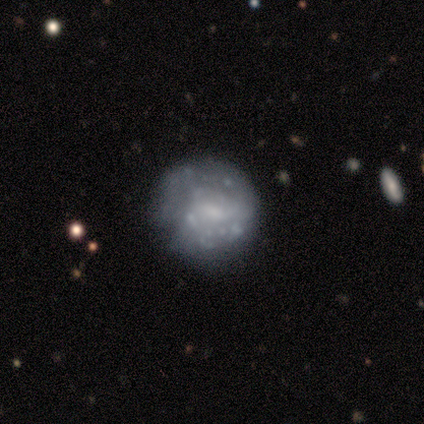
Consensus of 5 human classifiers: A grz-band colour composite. It shows a smooth galaxy with no disk features (60%) that is round (100%). Merging: none (100%).